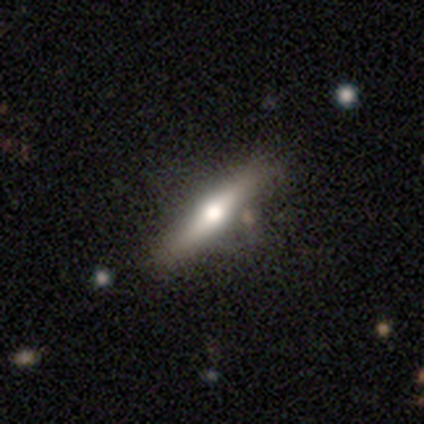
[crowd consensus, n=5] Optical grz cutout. It shows a featured or disk galaxy (100%) viewed edge-on (80%) with a rounded central bulge (100%). Merging: none (80%).